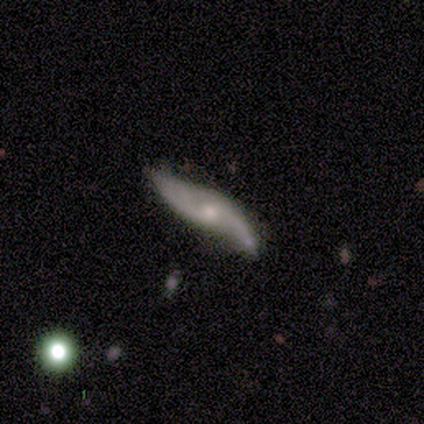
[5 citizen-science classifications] Smooth or featured? 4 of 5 (80%) said featured or disk. Edge-on disk? 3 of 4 (75%) said no. Bar? 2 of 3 (67%) said no. Spiral arms? 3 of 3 (100%) said yes. Spiral winding? 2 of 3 (67%) said loose. Spiral arm count? 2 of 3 (67%) said 2. Bulge size? 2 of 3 (67%) said moderate. Merging? 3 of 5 (60%) said none.